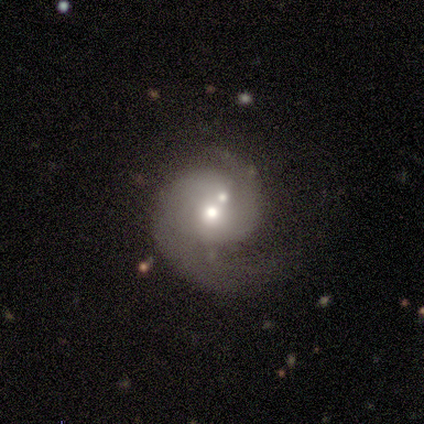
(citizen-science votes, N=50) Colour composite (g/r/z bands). It shows a featured or disk galaxy (86%) with no bar (79%), 2 (71%) medium (60%) spiral arms (98%) and a moderate central bulge (63%). Merging: none (40%).